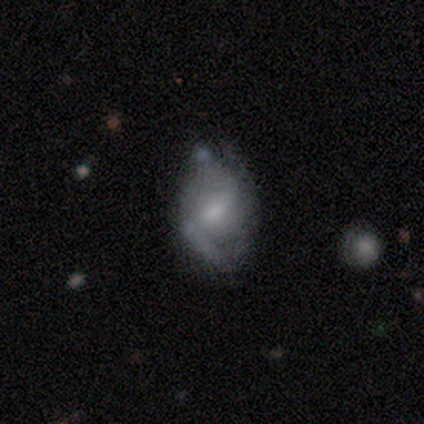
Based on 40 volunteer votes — Morphology: type=featured or disk (57%); edge-on=no (100%); bar=weak (57%); spiral arms=yes (61%); winding=loose (50%); arm count=2 (64%); bulge=small (43%); merging=none (58%).